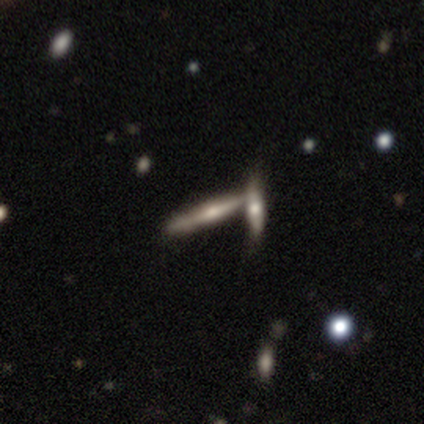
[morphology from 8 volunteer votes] Smooth or featured? 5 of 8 (62%) said featured or disk. Edge-on disk? 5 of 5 (100%) said yes. Edge-on bulge? 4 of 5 (80%) said rounded. Merging? 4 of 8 (50%, tied with merger) said none.